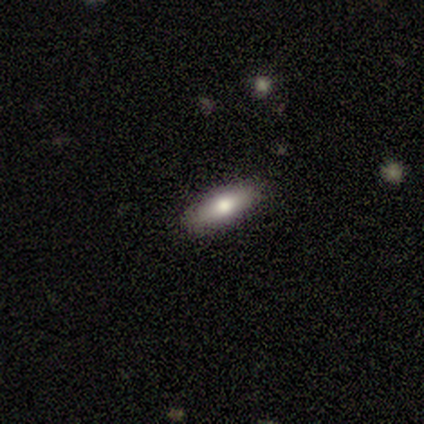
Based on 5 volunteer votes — This is clearly a smooth galaxy (100%). How rounded: likely cigar-shaped (60%). Merging: clearly none (100%).